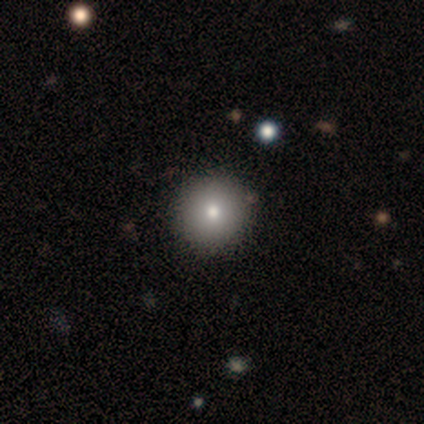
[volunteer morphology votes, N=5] smooth_or_featured: smooth (p=1.00)
how_rounded: round (p=0.80) [alt: in between p=0.20]
merging: none (p=0.80) [alt: minor disturbance p=0.20]